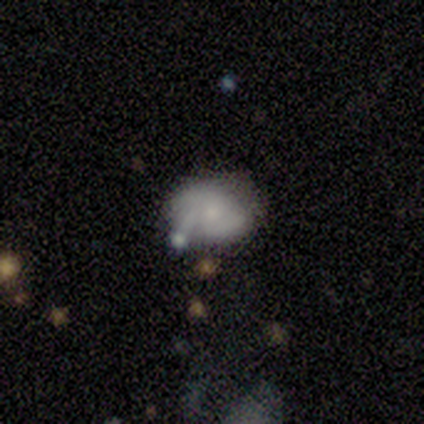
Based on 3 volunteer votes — smooth 67%, featured or disk 33%, star or artifact 0%. Down the decision tree: how rounded — round (100%); merging — none (33%, tied with minor disturbance and merger).